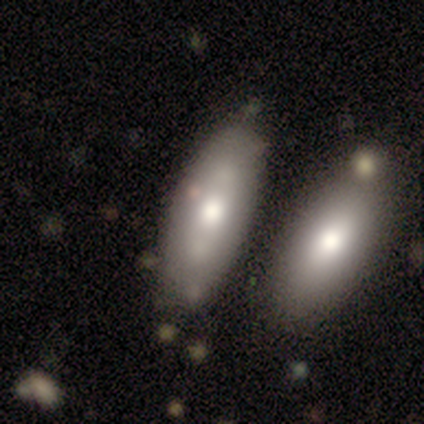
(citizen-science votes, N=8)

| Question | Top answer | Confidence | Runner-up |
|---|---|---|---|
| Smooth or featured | smooth | 88% | featured or disk (12%) |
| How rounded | in between | 71% | cigar-shaped (29%) |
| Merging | none | 88% | minor disturbance (12%) |